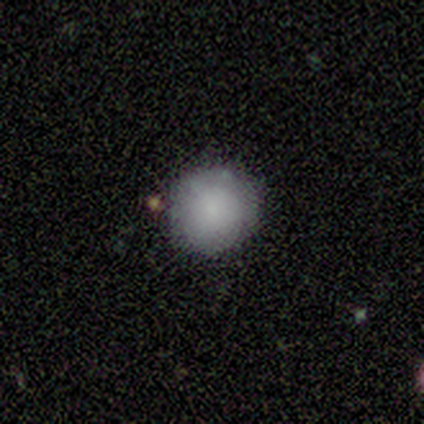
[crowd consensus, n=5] Volunteers were most divided on "how rounded": round: 75%, in between: 25%, cigar-shaped: 0%. More confident: merging — none (100%); smooth or featured — smooth (80%).